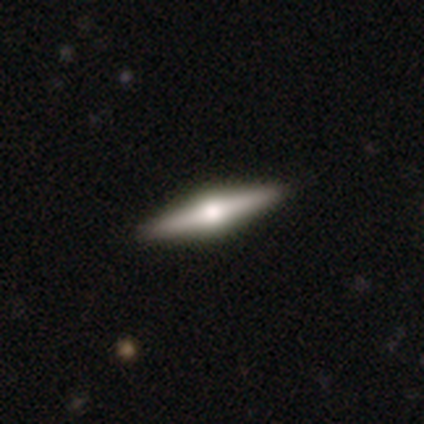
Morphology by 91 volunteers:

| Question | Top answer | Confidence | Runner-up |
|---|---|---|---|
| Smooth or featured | featured or disk | 70% | smooth (20%) |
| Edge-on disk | yes | 100% | — |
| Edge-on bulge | rounded | 97% | boxy (3%) |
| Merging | none | 94% | minor disturbance (4%) |